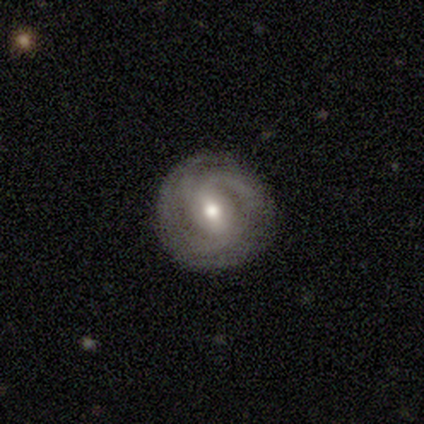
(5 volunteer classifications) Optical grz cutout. It shows a featured or disk galaxy (100%) with a strong bar (60%), 2 (60%) tight (40%, tied with loose) spiral arms (100%) and a small central bulge (80%). Merging: none (60%).